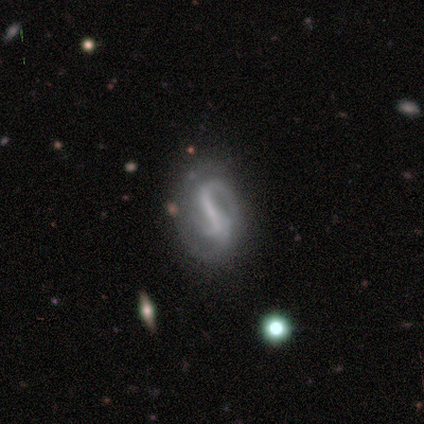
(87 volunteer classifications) Volunteers were most divided on "spiral winding": medium: 47%, tight: 35%, loose: 19%. More confident: edge-on disk — no (100%); spiral arms — yes (95%); smooth or featured — featured or disk (91%); bulge size — none (70%); merging — none (65%); bar — strong (65%); spiral arm count — 2 (53%).